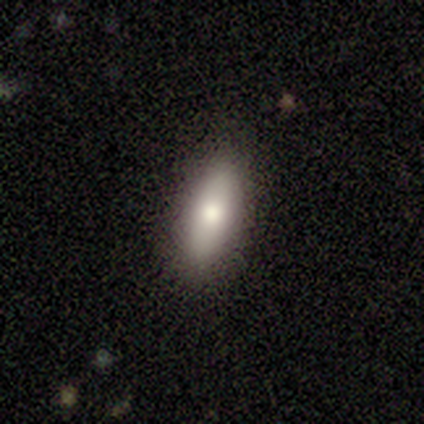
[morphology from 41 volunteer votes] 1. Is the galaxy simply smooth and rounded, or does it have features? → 76% smooth, 17% featured or disk, 7% star or artifact.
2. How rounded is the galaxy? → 81% in between, 19% cigar-shaped, 0% round.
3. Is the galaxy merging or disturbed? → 82% none, 13% minor disturbance, 5% merger, 0% major disturbance.